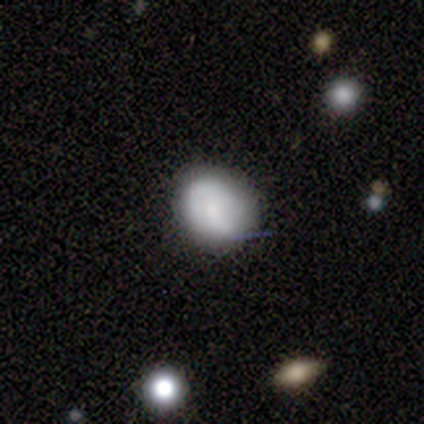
Smooth or featured: smooth — 100%
How rounded: round — 100%
Merging: none — 80% (minor disturbance — 20%)